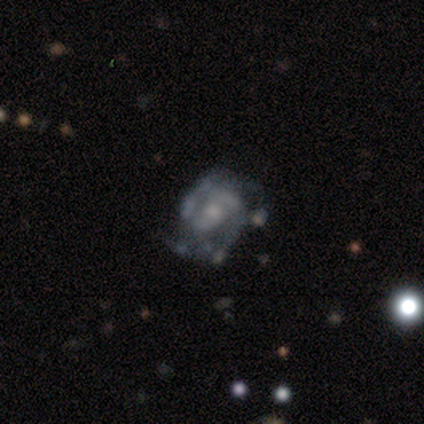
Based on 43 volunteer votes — Overall: featured or disk (86%). Edge-on disk: no (100%). Bar: no (62%; weak 27%). Spiral arms: yes (95%). Spiral arm count: 2 (57%; 3 17%). Spiral winding: tight (57%; medium 26%). Bulge size: small (46%; moderate 35%). Merging: none (65%; minor disturbance 28%).